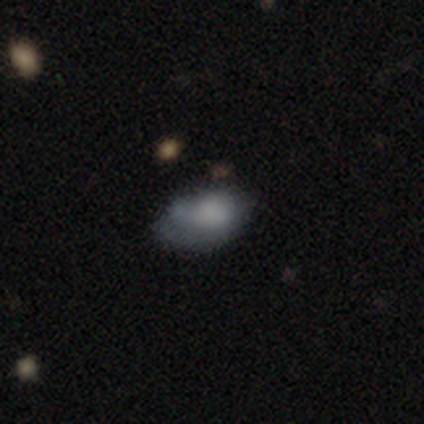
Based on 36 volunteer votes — Smooth or featured? smooth (78%)
How rounded? in between (93%)
Merging? none (45%)